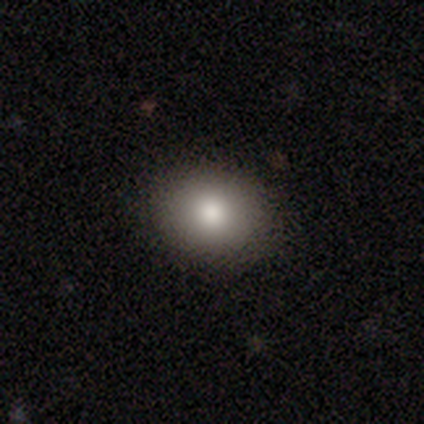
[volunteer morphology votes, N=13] type=smooth (85%); roundness=round (82%); merging=none (64%).